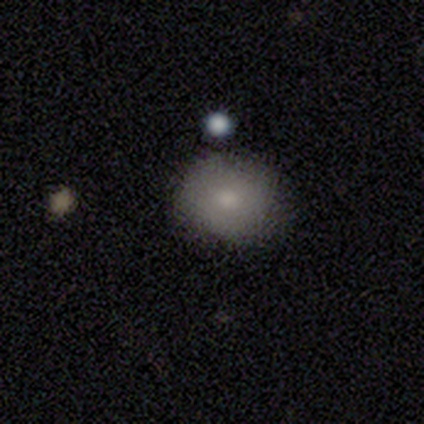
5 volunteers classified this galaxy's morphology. A smooth galaxy with no disk features (100%) that is round (80%). Merging: none (100%).